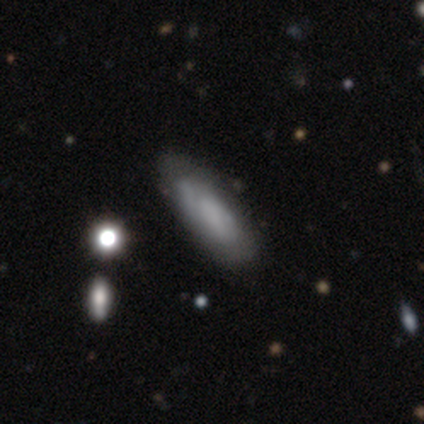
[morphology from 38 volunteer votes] Q: Smooth or featured?
A: smooth (53%); runner-up: featured or disk (39%)
Q: How rounded?
A: in between (60%); runner-up: cigar-shaped (35%)
Q: Merging?
A: none (60%); runner-up: minor disturbance (29%)